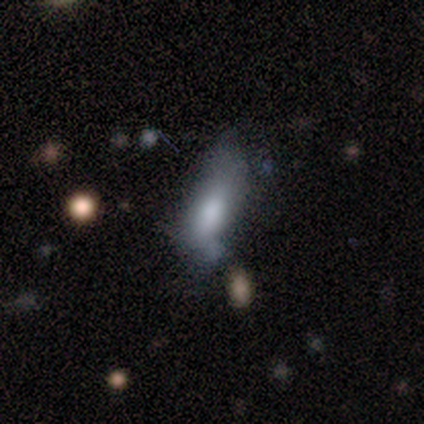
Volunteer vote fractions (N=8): featured or disk 50%, smooth 38%, star or artifact 12%. Down the decision tree: edge-on disk — no (100%); bar — weak (50%, tied with no); spiral arms — no (75%); bulge size — moderate (50%, tied with none); merging — minor disturbance (43%).